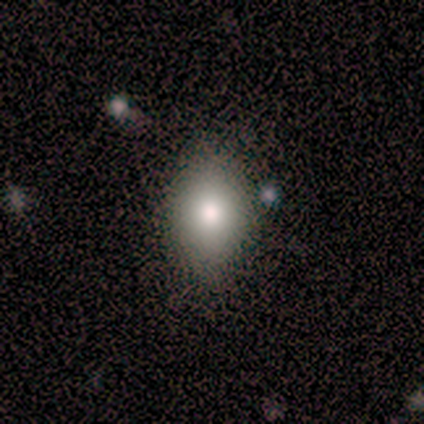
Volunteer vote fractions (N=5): A smooth galaxy with no disk features (60%) that is in between round and cigar-shaped (100%).

Vote fractions:
- Smooth or featured? smooth: 60% / featured or disk: 20% / star or artifact: 20%
- How rounded? in between: 100% / round: 0% / cigar-shaped: 0%
- Merging? none: 100% / minor disturbance: 0% / major disturbance: 0% / merger: 0%